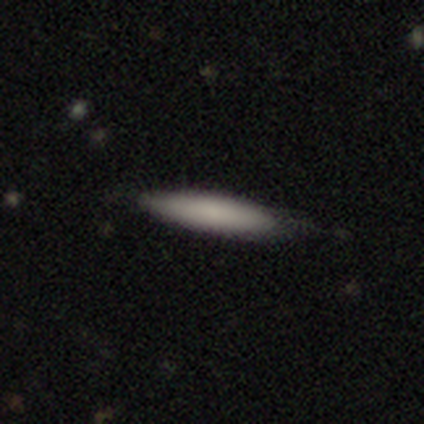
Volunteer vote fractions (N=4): Morphology: type=smooth (50%); roundness=cigar-shaped (100%); merging=none (67%).